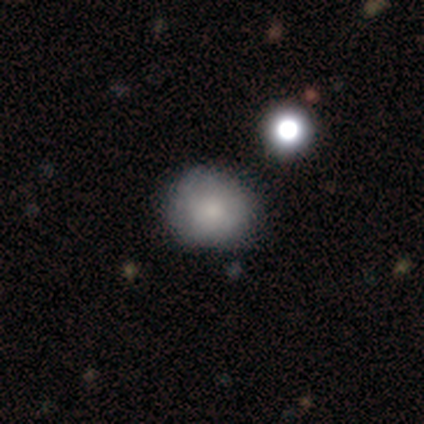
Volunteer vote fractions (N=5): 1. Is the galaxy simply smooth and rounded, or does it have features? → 100% smooth, 0% featured or disk, 0% star or artifact.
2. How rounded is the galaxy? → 80% round, 20% in between, 0% cigar-shaped.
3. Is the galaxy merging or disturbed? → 40% none (tied), 40% minor disturbance (tied), 20% merger, 0% major disturbance.